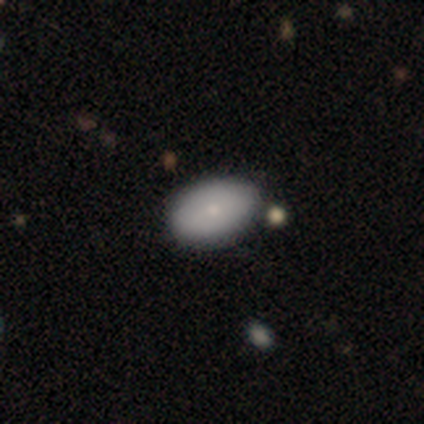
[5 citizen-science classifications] Volunteers were most divided on "smooth or featured": smooth: 60%, featured or disk: 20%, star or artifact: 20%. More confident: how rounded — in between (100%); merging — none (75%).